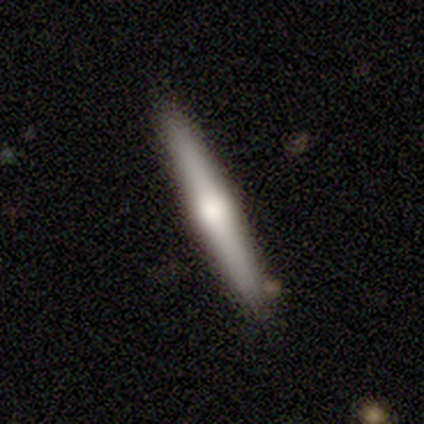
A smooth galaxy with no disk features (50%, tied with featured or disk) that is round (50%, tied with cigar-shaped).

Vote fractions:
- Smooth or featured? smooth: 50% (tied) / featured or disk: 50% (tied) / star or artifact: 0%
- How rounded? round: 50% (tied) / cigar-shaped: 50% (tied) / in between: 0%
- Merging? none: 100% / minor disturbance: 0% / major disturbance: 0% / merger: 0%